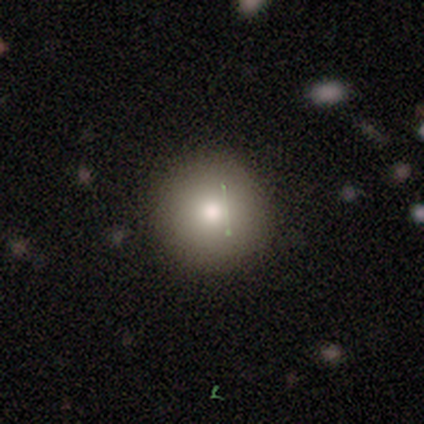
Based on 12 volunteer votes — A smooth galaxy with no disk features (58%) that is round (100%). Merging: none (100%).